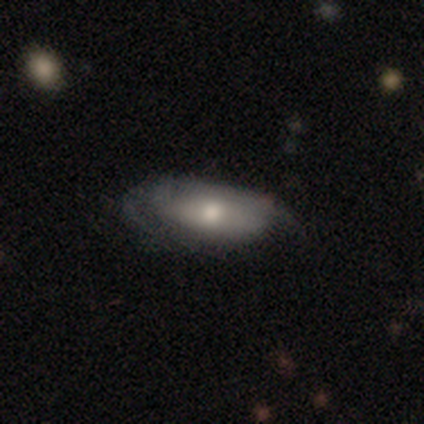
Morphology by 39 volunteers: smooth-or-featured: smooth: 54% | featured or disk: 41% | star or artifact: 5%
  how-rounded: in between: 76% | cigar-shaped: 19% | round: 5%
  merging: none: 65% | minor disturbance: 30% | major disturbance: 5% | merger: 0%